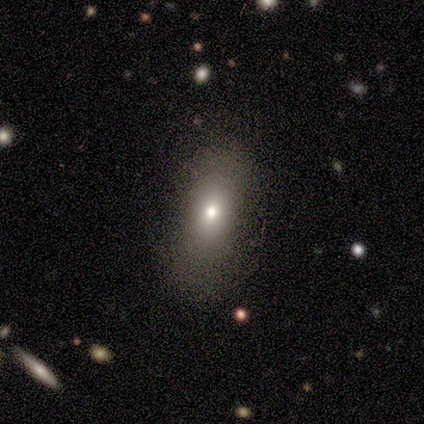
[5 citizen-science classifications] Volunteers were most divided on "smooth or featured": smooth: 60%, star or artifact: 40%, featured or disk: 0%. More confident: how rounded — in between (100%); merging — none (100%).